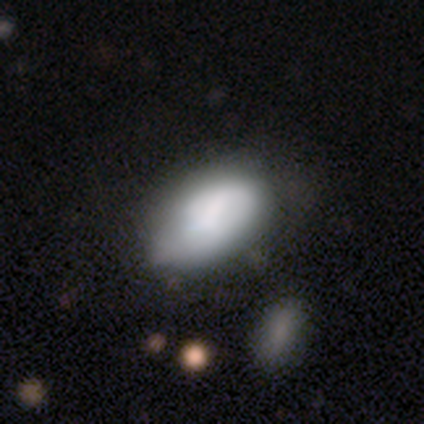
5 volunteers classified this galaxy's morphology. This appears to be a smooth galaxy with no disk features (100%) that is in between round and cigar-shaped (100%). Merging: minor disturbance (60%).